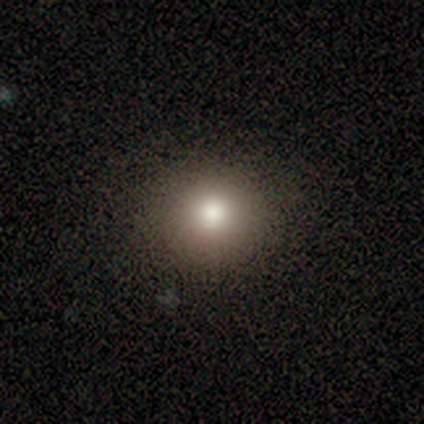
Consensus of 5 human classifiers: Volunteers were most divided on "smooth or featured": smooth: 60%, star or artifact: 40%, featured or disk: 0%. More confident: how rounded — round (100%); merging — none (100%).